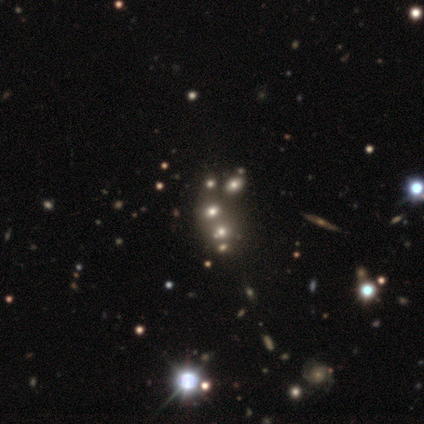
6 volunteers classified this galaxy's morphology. Smooth or featured?
  - smooth: 50% *
  - star or artifact: 33%
  - featured or disk: 17%
How rounded?
  - round: 33% * (tied)
  - in between: 33% * (tied)
  - cigar-shaped: 33% * (tied)
Merging?
  - merger: 75% *
  - none: 25%
  - minor disturbance: 0%
  - major disturbance: 0%